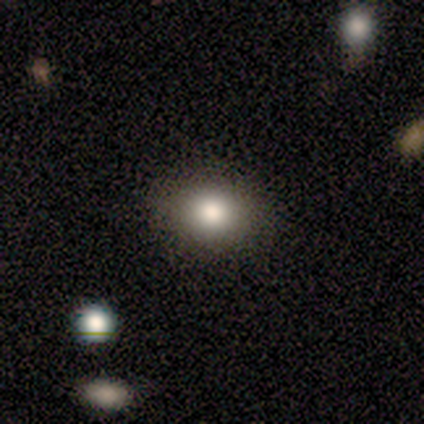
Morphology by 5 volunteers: Volunteers were most divided on "how rounded": round: 75%, cigar-shaped: 25%, in between: 0%. More confident: merging — none (100%); smooth or featured — smooth (80%).